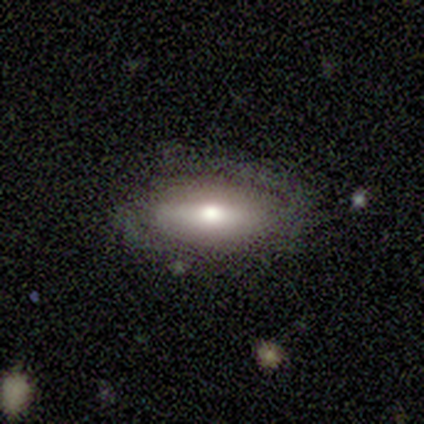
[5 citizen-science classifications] Overall: featured or disk (100%). Edge-on disk: no (60%; yes 40%). Bar: strong (67%; weak 33%). Spiral arms: yes (100%). Spiral arm count: 2 (67%; 1 33%). Spiral winding: tight (67%; loose 33%). Bulge size: moderate (100%). Merging: none (80%).